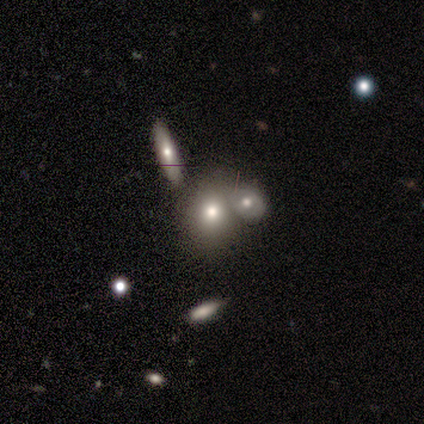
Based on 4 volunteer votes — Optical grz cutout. It shows a smooth galaxy with no disk features (75%) that is in between round and cigar-shaped (67%). Merging: none (50%, tied with merger).